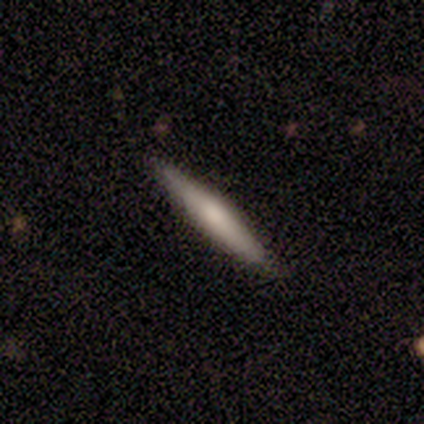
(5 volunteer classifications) This is clearly a smooth galaxy (100%). How rounded: clearly cigar-shaped (100%). Merging: clearly none (100%).